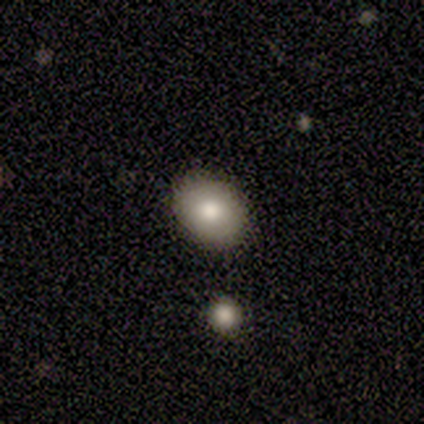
Smooth or featured: smooth — 80% (star or artifact — 20%)
How rounded: round — 50% (tied with in between — 50%)
Merging: none — 75% (minor disturbance — 25%)